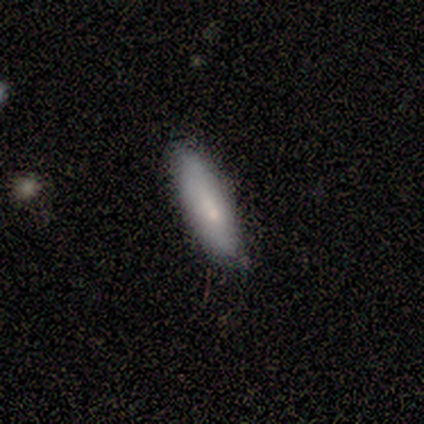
Overall: smooth (50%, tied with featured or disk). How rounded: in between (50%, tied with cigar-shaped). Merging: none (100%).